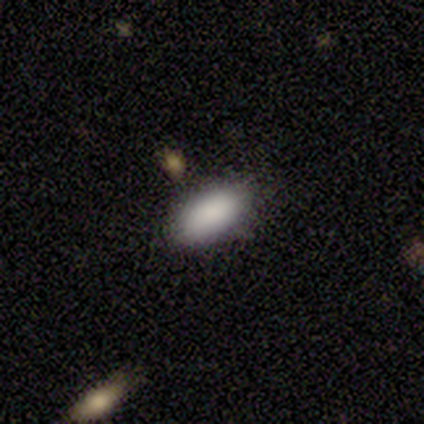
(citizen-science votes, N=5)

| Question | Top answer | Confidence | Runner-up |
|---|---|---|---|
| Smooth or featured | smooth | 80% | featured or disk (20%) |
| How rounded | in between | 100% | — |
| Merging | none | 100% | — |